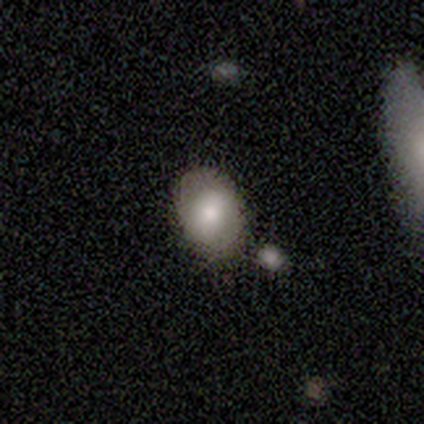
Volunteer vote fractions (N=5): Morphology: type=smooth (60%); roundness=in between (100%); merging=none (75%).